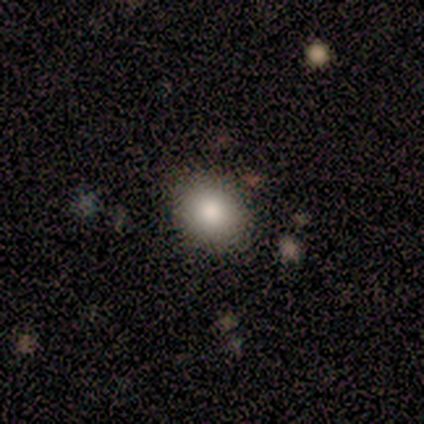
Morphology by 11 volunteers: smooth-or-featured: smooth: 100% | featured or disk: 0% | star or artifact: 0%
  how-rounded: round: 73% | in between: 27% | cigar-shaped: 0%
  merging: none: 91% | minor disturbance: 9% | major disturbance: 0% | merger: 0%